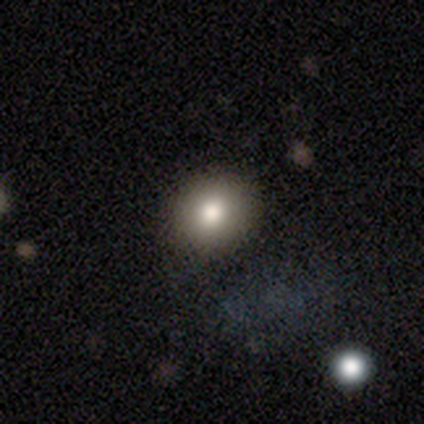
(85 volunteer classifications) This appears to be a smooth galaxy with no disk features (73%) that is round (77%). Merging: none (90%).